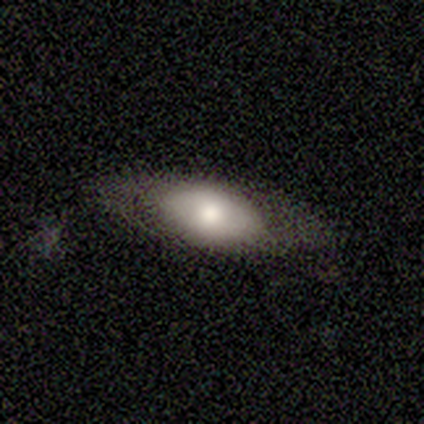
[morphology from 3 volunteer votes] smooth-or-featured: featured or disk: 67% | smooth: 33% | star or artifact: 0%
  disk-edge-on: no: 100% | yes: 0%
    bar: weak: 50% (tied) | no: 50% (tied) | strong: 0%
    has-spiral-arms: no: 100% | yes: 0%
    bulge-size: large: 50% (tied) | moderate: 50% (tied) | dominant: 0% | small: 0% | none: 0%
  merging: none: 67% | minor disturbance: 33% | major disturbance: 0% | merger: 0%